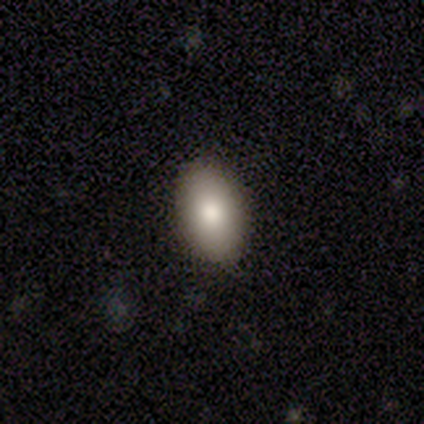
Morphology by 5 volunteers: A smooth galaxy with no disk features (80%) that is in between round and cigar-shaped (100%). Merging: none (100%).